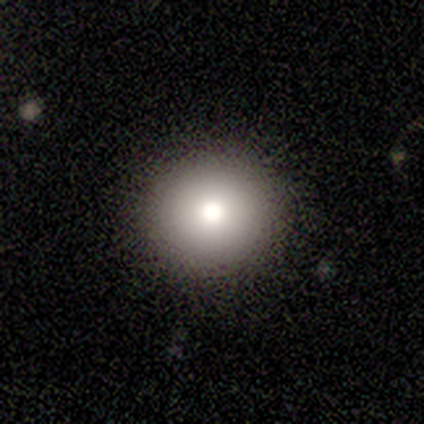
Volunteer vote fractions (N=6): This is clearly a smooth galaxy (100%). How rounded: clearly round (100%). Merging: clearly none (100%).